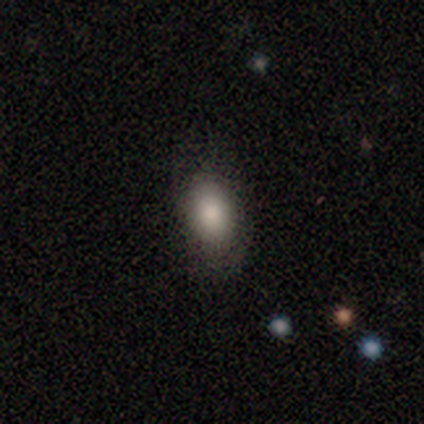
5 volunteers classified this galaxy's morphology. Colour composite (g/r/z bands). It shows a smooth galaxy with no disk features (100%) that is in between round and cigar-shaped (80%). Merging: none (60%).